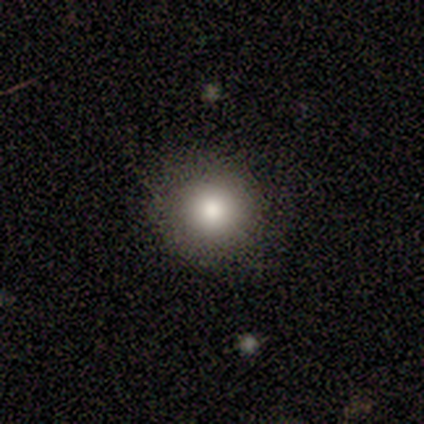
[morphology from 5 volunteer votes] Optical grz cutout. It shows a smooth galaxy with no disk features (60%) that is round (100%). Merging: none (100%).